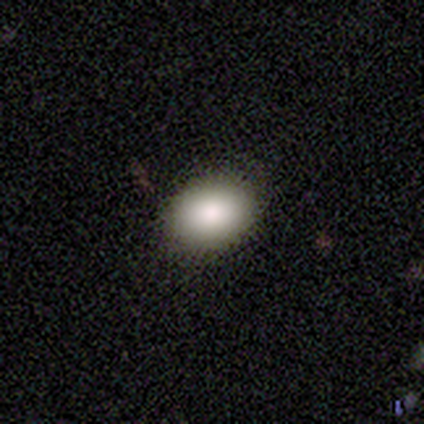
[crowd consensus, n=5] This appears to be a smooth galaxy with no disk features (100%) that is round (60%). Merging: none (100%).